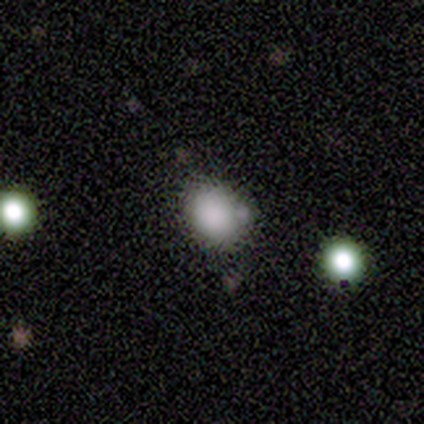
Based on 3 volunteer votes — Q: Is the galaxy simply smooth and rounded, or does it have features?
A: smooth — 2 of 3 (67%).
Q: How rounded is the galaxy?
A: round — 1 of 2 (50%, tied with in between).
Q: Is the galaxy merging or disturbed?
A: none — 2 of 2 (100%).